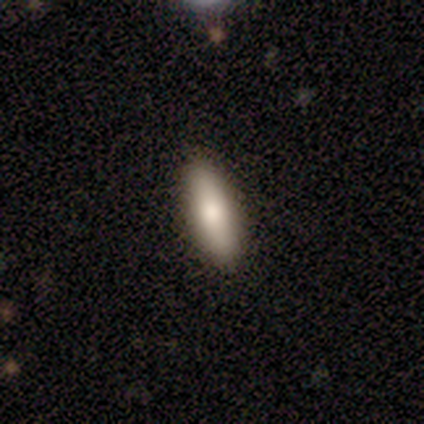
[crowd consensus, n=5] Smooth or featured? 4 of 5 (80%) said smooth. How rounded? 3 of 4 (75%) said in between. Merging? 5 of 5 (100%) said none.